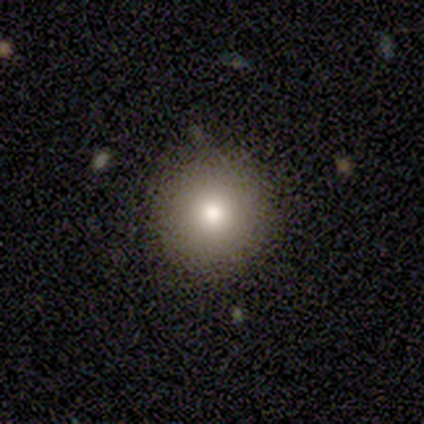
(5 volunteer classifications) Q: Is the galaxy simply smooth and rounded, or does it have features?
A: smooth — 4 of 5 (80%).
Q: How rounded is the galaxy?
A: round — 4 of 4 (100%).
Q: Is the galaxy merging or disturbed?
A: none — 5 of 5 (100%).